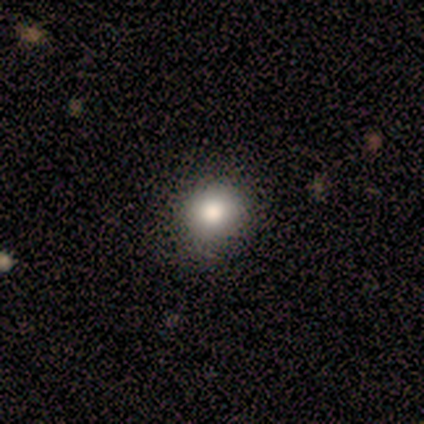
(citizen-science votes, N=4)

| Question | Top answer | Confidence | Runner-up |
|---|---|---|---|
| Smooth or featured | smooth | 75% | star or artifact (25%) |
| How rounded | in between | 67% | round (33%) |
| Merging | none | 100% | — |